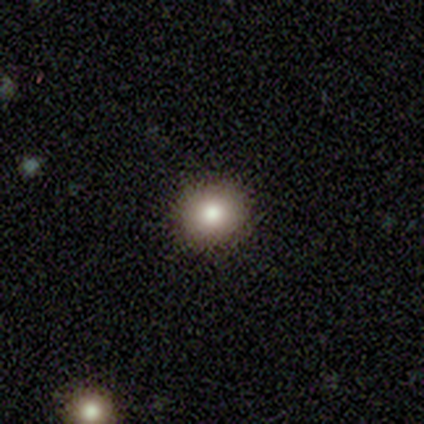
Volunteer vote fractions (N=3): smooth 100%, featured or disk 0%, star or artifact 0%. Down the decision tree: how rounded — round (100%); merging — none (100%).